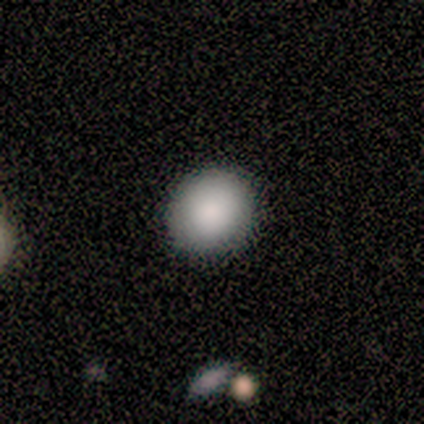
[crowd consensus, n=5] smooth_or_featured: smooth (p=0.40) [tied with: featured or disk p=0.40]
how_rounded: round (p=0.50) [tied with: in between p=0.50]
merging: none (p=1.00)